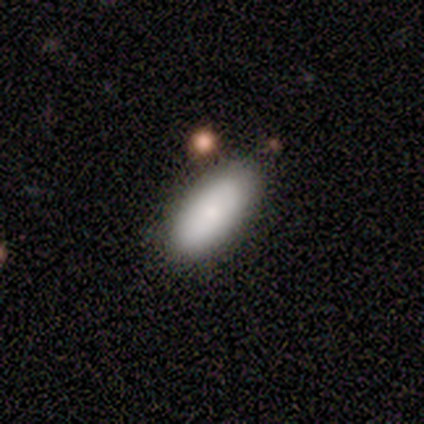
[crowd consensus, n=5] A smooth galaxy with no disk features (60%) that is in between round and cigar-shaped (67%). Merging: none (80%).